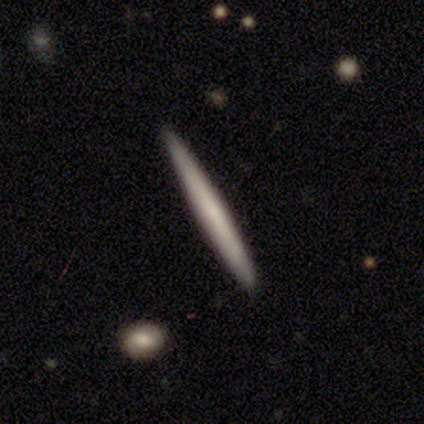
Smooth or featured? smooth (60%)
How rounded? cigar-shaped (67%)
Merging? none (100%)